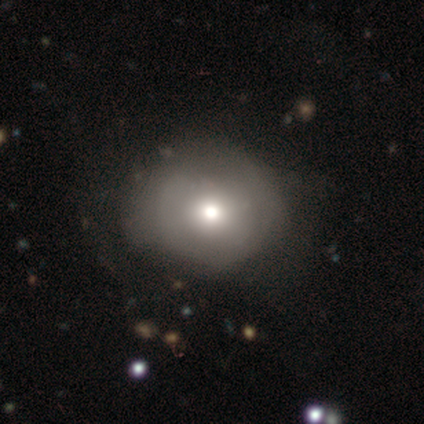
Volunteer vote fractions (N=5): A smooth galaxy with no disk features (60%) that is round (67%). Merging: none (50%, tied with minor disturbance).